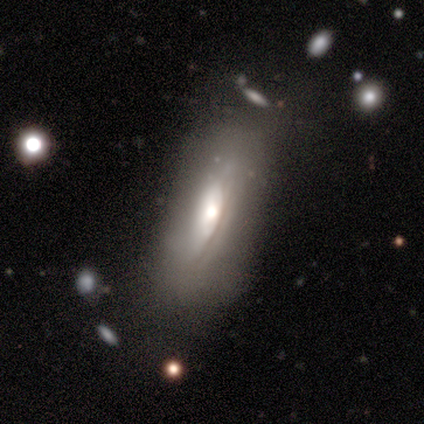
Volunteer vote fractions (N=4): A smooth galaxy with no disk features (50%, tied with featured or disk) that is cigar-shaped (100%).

Vote fractions:
- Smooth or featured? smooth: 50% (tied) / featured or disk: 50% (tied) / star or artifact: 0%
- How rounded? cigar-shaped: 100% / round: 0% / in between: 0%
- Merging? none: 75% / minor disturbance: 25% / major disturbance: 0% / merger: 0%